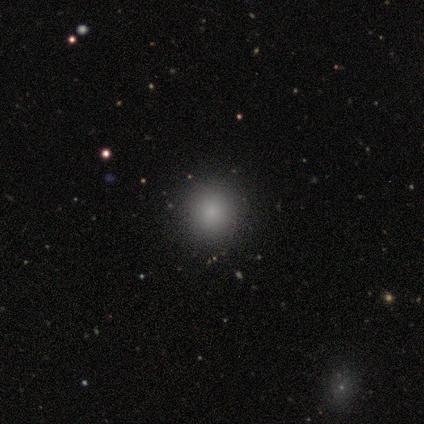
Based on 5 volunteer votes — Overall: smooth (100%). How rounded: round (80%). Merging: none (80%).